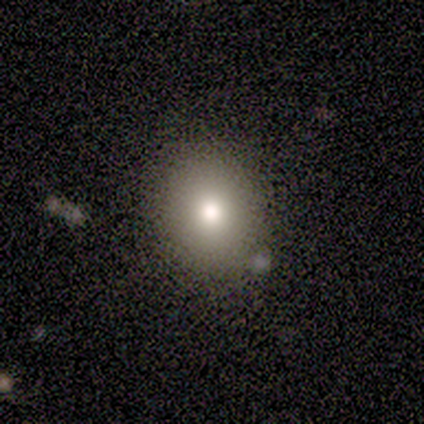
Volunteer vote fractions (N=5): smooth_or_featured: smooth (p=1.00)
how_rounded: round (p=1.00)
merging: none (p=0.80) [alt: merger p=0.20]